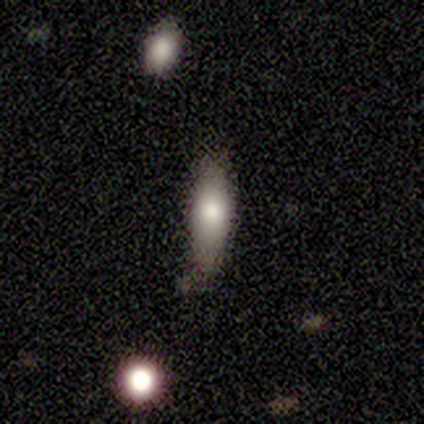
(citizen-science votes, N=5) Smooth or featured: smooth — 80% (featured or disk — 20%)
How rounded: in between — 50% (tied with cigar-shaped — 50%)
Merging: none — 60% (minor disturbance — 40%)